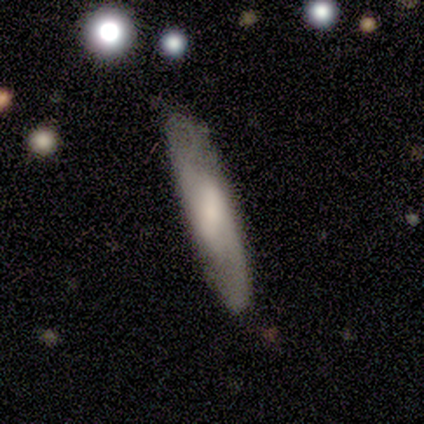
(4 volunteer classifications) smooth 50%, featured or disk 25%, star or artifact 25%. Down the decision tree: how rounded — in between (50%, tied with cigar-shaped); merging — none (100%).